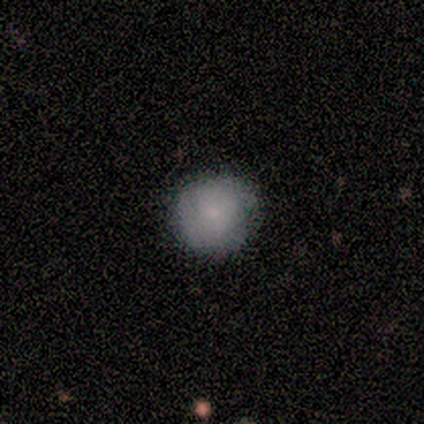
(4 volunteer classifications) Consensus on every question: smooth or featured — smooth (100%); how rounded — round (100%); merging — none (100%).